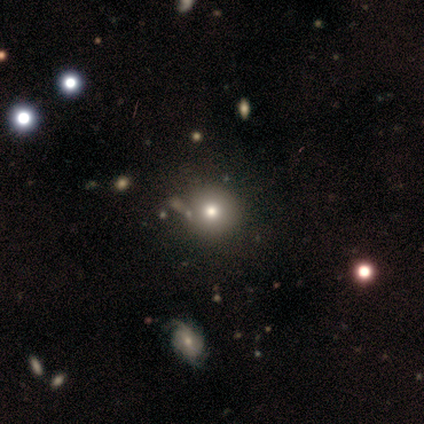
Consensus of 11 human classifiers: Morphology: type=smooth (73%); roundness=round (100%); merging=none (80%).